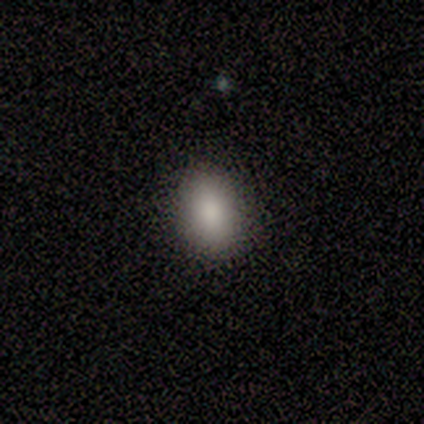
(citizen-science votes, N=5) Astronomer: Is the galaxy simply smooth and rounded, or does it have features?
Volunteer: smooth — 60%.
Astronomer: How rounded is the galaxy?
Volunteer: in between — 100%.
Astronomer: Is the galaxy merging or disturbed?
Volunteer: none — 100%.